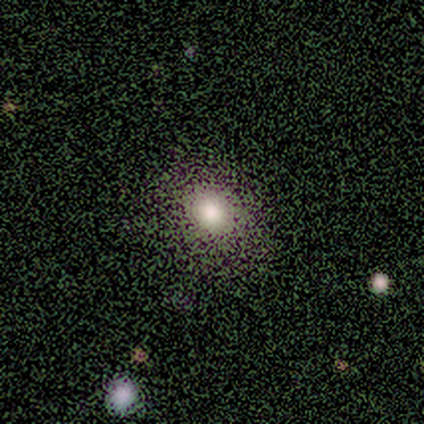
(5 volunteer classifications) A smooth galaxy with no disk features (100%) that is in between round and cigar-shaped (80%).

Vote fractions:
- Smooth or featured? smooth: 100% / featured or disk: 0% / star or artifact: 0%
- How rounded? in between: 80% / round: 20% / cigar-shaped: 0%
- Merging? none: 100% / minor disturbance: 0% / major disturbance: 0% / merger: 0%